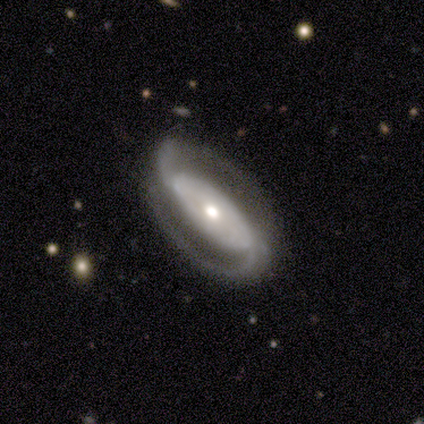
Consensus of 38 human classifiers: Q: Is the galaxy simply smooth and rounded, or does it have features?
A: featured or disk — 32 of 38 (84%).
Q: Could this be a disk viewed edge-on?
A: no — 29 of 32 (91%).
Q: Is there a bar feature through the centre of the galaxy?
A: strong — 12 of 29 (41%, tied with no).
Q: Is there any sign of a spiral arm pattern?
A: yes — 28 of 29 (97%).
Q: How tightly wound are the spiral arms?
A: tight — 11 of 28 (39%).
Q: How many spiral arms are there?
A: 2 — 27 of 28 (96%).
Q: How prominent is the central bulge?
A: moderate — 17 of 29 (59%).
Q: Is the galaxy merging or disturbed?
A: none — 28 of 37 (76%).